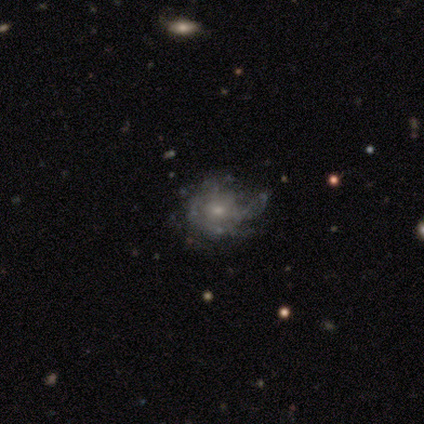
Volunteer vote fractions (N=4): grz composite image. It shows a featured or disk galaxy (75%) with a weak bar (67%), 3 (67%) tight (33%, tied with medium and loose) spiral arms (100%) and a small central bulge (67%). Merging: none (75%).